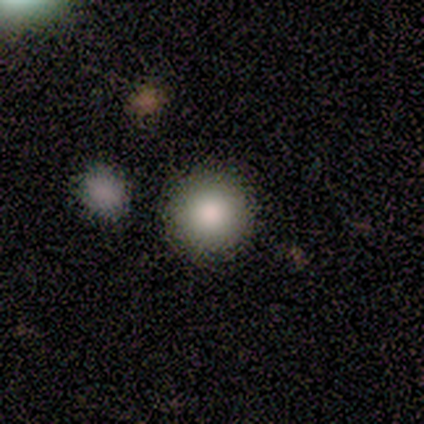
Smooth or featured? smooth (100%)
How rounded? round (100%)
Merging? none (80%)